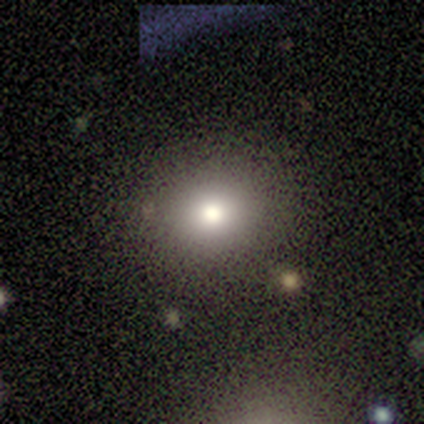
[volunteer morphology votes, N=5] Smooth or featured?
  - smooth: 100% *
  - featured or disk: 0%
  - star or artifact: 0%
How rounded?
  - round: 100% *
  - in between: 0%
  - cigar-shaped: 0%
Merging?
  - none: 100% *
  - minor disturbance: 0%
  - major disturbance: 0%
  - merger: 0%